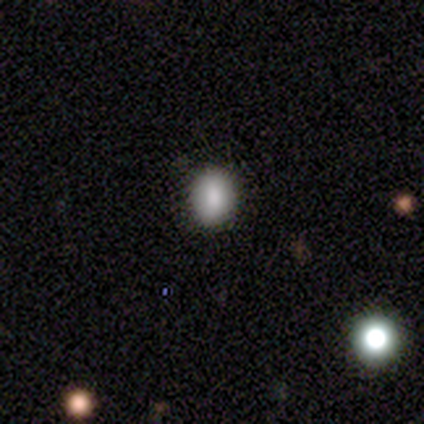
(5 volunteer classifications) smooth_or_featured: smooth (p=0.80) [alt: star or artifact p=0.20]
how_rounded: in between (p=0.75) [alt: round p=0.25]
merging: none (p=1.00)